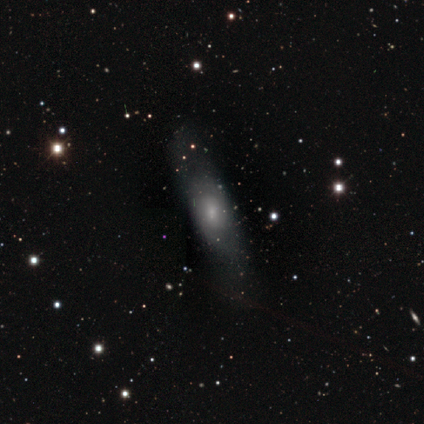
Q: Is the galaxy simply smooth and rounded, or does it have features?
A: smooth — 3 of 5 (60%).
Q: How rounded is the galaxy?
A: in between — 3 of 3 (100%).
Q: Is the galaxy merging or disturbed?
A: none — 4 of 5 (80%).